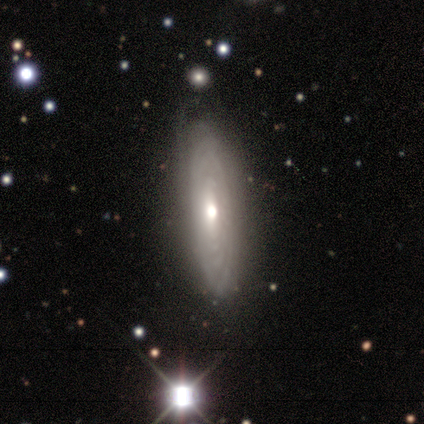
Morphology: type=featured or disk (100%); edge-on=no (80%); bar=no (75%); spiral arms=yes (75%); winding=tight (100%); arm count=can't tell (100%); bulge=moderate (100%); merging=none (80%).